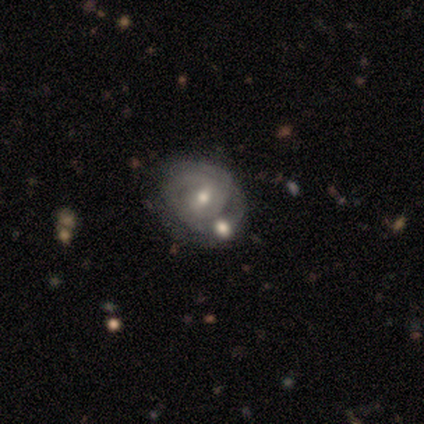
smooth_or_featured: featured or disk (p=0.76) [alt: smooth p=0.17]
disk_edge_on: no (p=1.00)
bar: weak (p=0.60) [alt: no p=0.34]
has_spiral_arms: yes (p=0.89) [alt: no p=0.11]
spiral_winding: tight (p=0.59) [alt: medium p=0.34]
spiral_arm_count: can't tell (p=0.41) [alt: 2 p=0.40]
bulge_size: moderate (p=0.68) [alt: small p=0.28]
merging: merger (p=0.40) [alt: none p=0.33]